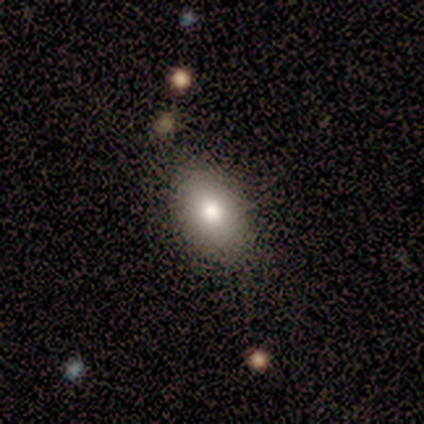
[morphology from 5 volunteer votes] Smooth or featured: smooth — 80% (star or artifact — 20%)
How rounded: in between — 75% (round — 25%)
Merging: none — 100%